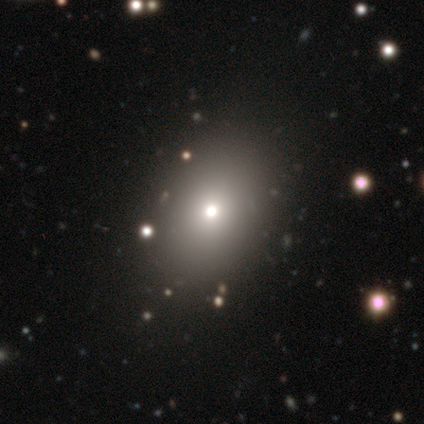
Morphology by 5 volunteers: A smooth galaxy with no disk features (80%) that is round (75%).

Vote fractions:
- Smooth or featured? smooth: 80% / star or artifact: 20% / featured or disk: 0%
- How rounded? round: 75% / in between: 25% / cigar-shaped: 0%
- Merging? none: 75% / minor disturbance: 25% / major disturbance: 0% / merger: 0%